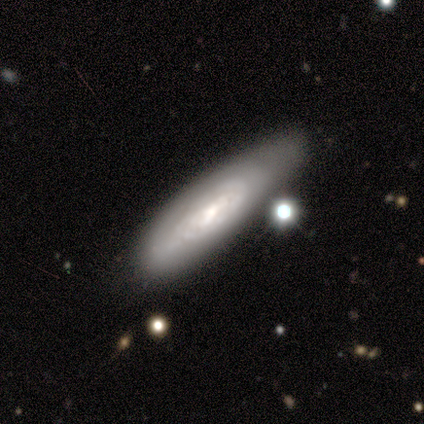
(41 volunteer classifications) Morphology: type=featured or disk (68%); edge-on=no (82%); bar=weak (57%); spiral arms=yes (65%); winding=tight (73%); arm count=can't tell (80%); bulge=moderate (52%); merging=none (49%).